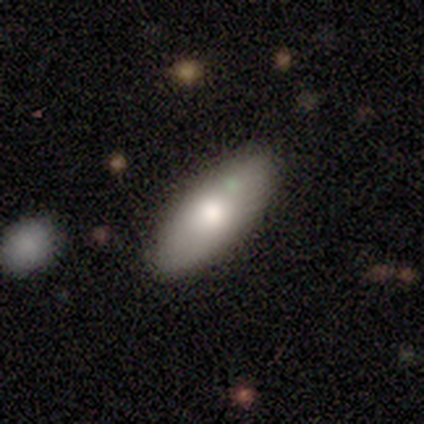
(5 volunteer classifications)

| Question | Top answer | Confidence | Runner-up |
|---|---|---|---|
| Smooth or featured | smooth | 60% | featured or disk (40%) |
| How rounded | cigar-shaped | 67% | in between (33%) |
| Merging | none | 80% | minor disturbance (20%) |